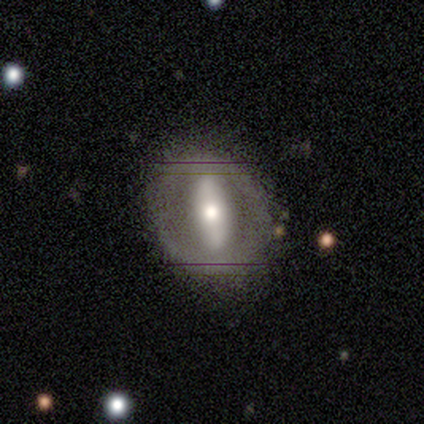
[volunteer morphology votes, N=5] Smooth or featured? 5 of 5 (100%) said featured or disk. Edge-on disk? 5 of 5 (100%) said no. Bar? 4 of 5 (80%) said strong. Spiral arms? 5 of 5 (100%) said no. Bulge size? 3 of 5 (60%) said small. Merging? 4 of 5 (80%) said none.